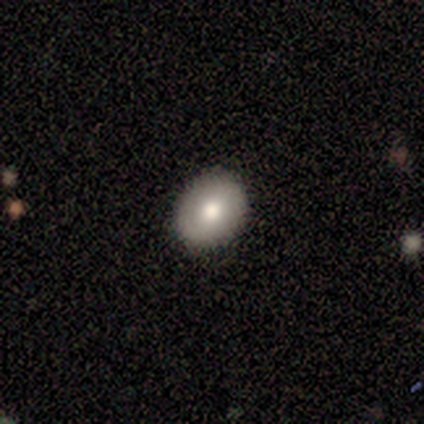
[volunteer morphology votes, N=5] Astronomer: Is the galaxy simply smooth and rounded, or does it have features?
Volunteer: smooth — 100%.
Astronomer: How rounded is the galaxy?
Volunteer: round — 60% (runner-up: in between, 40%).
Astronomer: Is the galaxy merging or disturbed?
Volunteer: none — 80%.